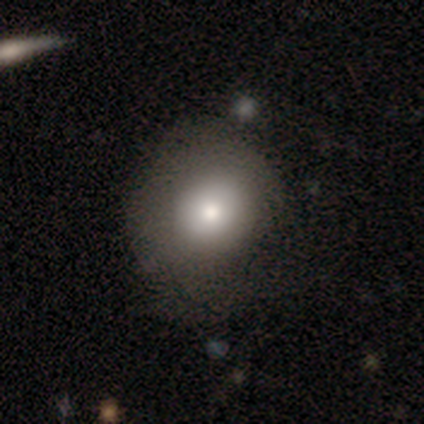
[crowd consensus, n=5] Q: Smooth or featured?
A: featured or disk (60%); runner-up: smooth (40%)
Q: Edge-on disk?
A: no (100%)
Q: Bar?
A: no (100%)
Q: Spiral arms?
A: no (67%); runner-up: yes (33%)
Q: Bulge size?
A: moderate (67%); runner-up: large (33%)
Q: Merging?
A: minor disturbance (60%); runner-up: none (20%)